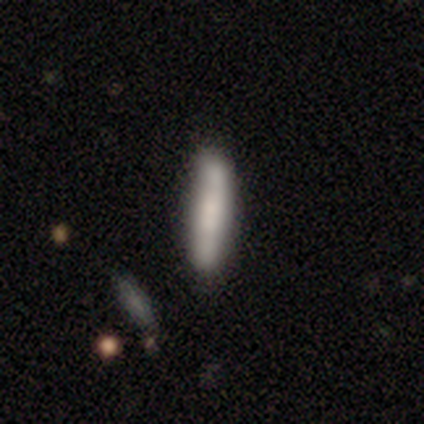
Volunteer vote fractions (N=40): Smooth or featured? 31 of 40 (78%) said smooth. How rounded? 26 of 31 (84%) said cigar-shaped. Merging? 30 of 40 (75%) said none.